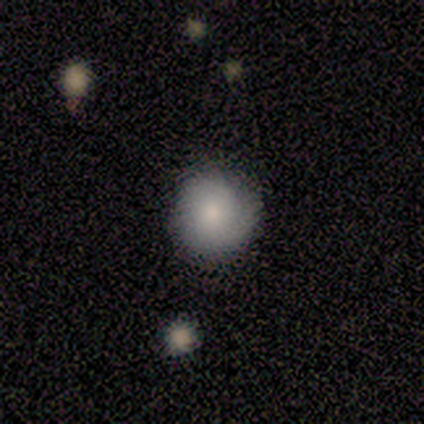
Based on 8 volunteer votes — Smooth or featured? 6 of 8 (75%) said smooth. How rounded? 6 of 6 (100%) said round. Merging? 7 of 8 (88%) said none.